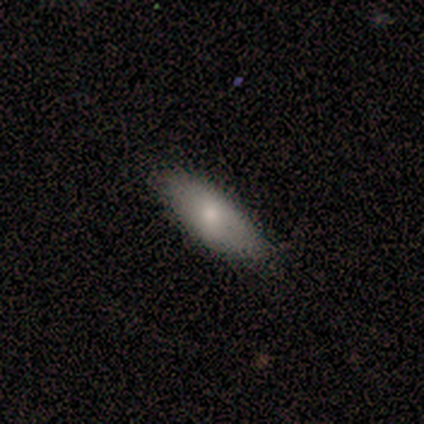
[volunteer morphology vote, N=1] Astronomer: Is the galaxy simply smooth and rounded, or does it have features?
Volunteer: smooth — 100%.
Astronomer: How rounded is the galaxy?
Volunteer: in between — 100%.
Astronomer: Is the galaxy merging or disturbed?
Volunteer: none — 100%.